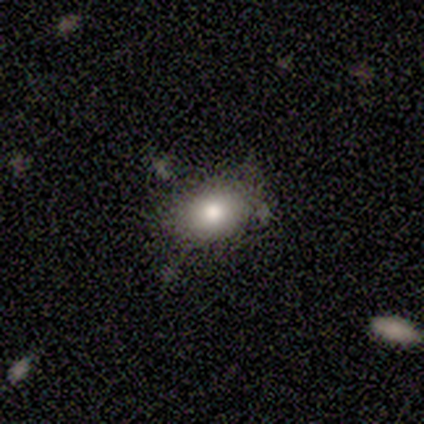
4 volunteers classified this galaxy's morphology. Smooth or featured: smooth — 50% (tied with featured or disk — 50%)
How rounded: in between — 100%
Merging: none — 50% (minor disturbance — 25%)